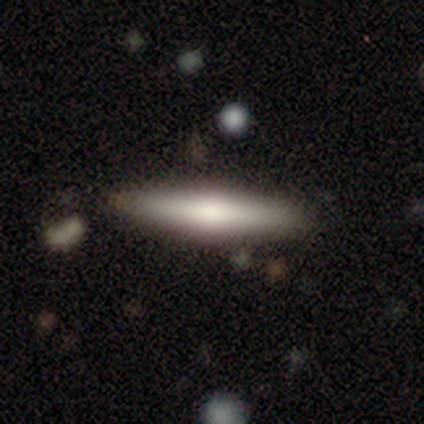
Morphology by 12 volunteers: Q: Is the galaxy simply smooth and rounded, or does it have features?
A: smooth — 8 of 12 (67%).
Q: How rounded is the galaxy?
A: cigar-shaped — 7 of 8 (88%).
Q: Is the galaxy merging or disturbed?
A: none — 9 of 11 (82%).